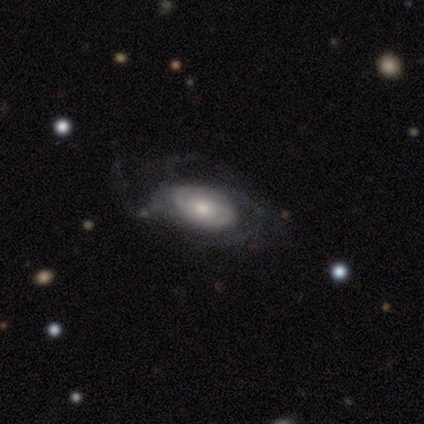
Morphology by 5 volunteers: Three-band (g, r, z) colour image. It shows a featured or disk galaxy (100%) with no bar (80%), loose (75%) spiral arms (80%) and a small central bulge (60%). Merging: none (80%).